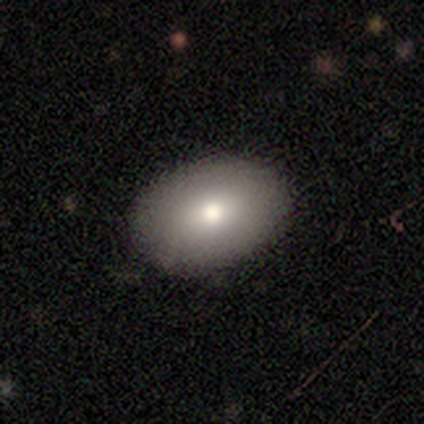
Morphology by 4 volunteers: Smooth or featured? 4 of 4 (100%) said smooth. How rounded? 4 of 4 (100%) said in between. Merging? 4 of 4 (100%) said none.